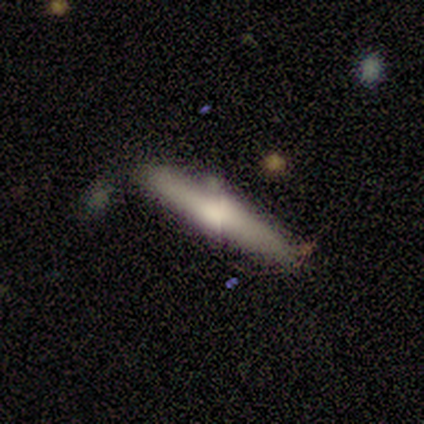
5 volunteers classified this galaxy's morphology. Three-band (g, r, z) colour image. It shows a smooth galaxy with no disk features (80%) that is cigar-shaped (75%). Merging: none (80%).